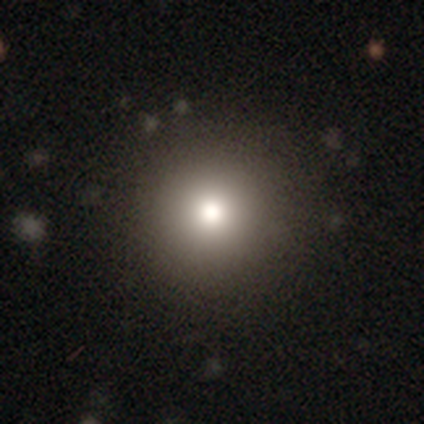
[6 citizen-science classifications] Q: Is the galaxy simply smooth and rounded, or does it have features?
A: smooth — 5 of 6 (83%).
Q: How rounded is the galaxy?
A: round — 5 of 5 (100%).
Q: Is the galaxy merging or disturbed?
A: none — 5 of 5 (100%).